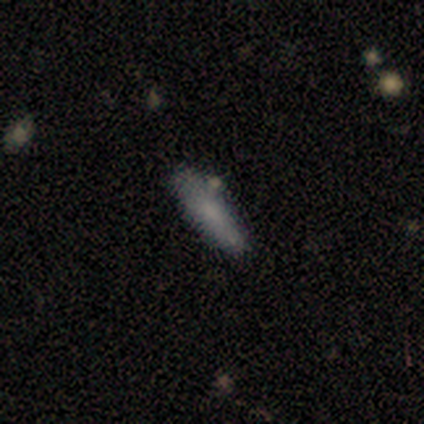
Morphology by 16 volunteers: smooth-or-featured: smooth: 75% | featured or disk: 19% | star or artifact: 6%
  how-rounded: cigar-shaped: 75% | in between: 25% | round: 0%
  merging: none: 53% | minor disturbance: 47% | major disturbance: 0% | merger: 0%